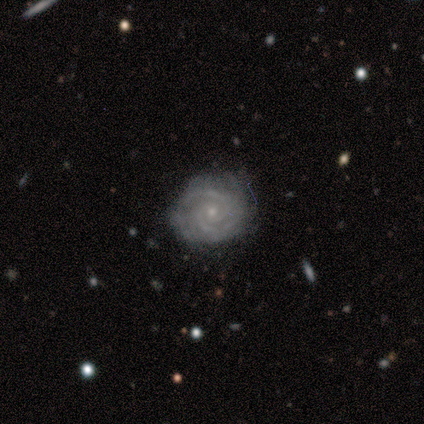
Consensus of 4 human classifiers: featured or disk 75%, star or artifact 25%, smooth 0%. Down the decision tree: edge-on disk — no (100%); bar — no (100%); spiral arms — yes (100%); spiral arm count — 2 (67%); spiral winding — tight (67%); bulge size — small (100%); merging — none (67%).